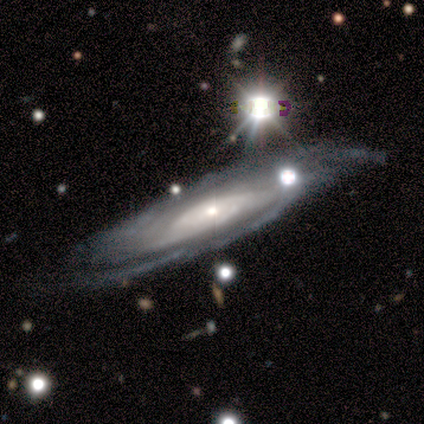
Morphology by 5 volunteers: Smooth or featured? 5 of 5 (100%) said featured or disk. Edge-on disk? 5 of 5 (100%) said no. Bar? 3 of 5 (60%) said no. Spiral arms? 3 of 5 (60%) said yes. Spiral winding? 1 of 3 (33%, tied with medium and loose) said tight. Spiral arm count? 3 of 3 (100%) said can't tell. Bulge size? 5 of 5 (100%) said small. Merging? 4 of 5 (80%) said minor disturbance.